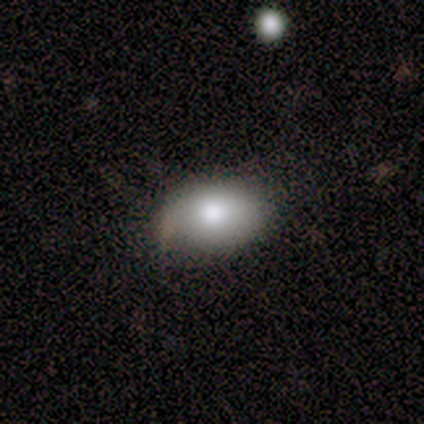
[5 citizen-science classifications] A smooth galaxy with no disk features (100%) that is in between round and cigar-shaped (100%). Merging: none (60%).